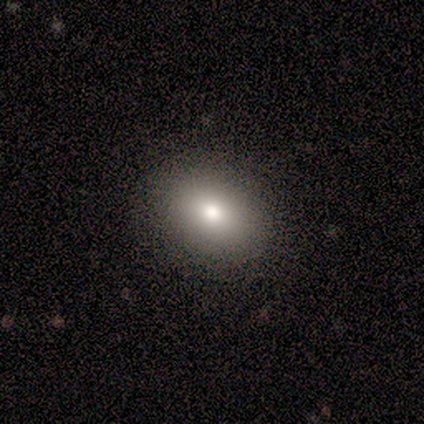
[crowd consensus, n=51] Overall: smooth (84%). How rounded: in between (56%; round 44%). Merging: none (91%).